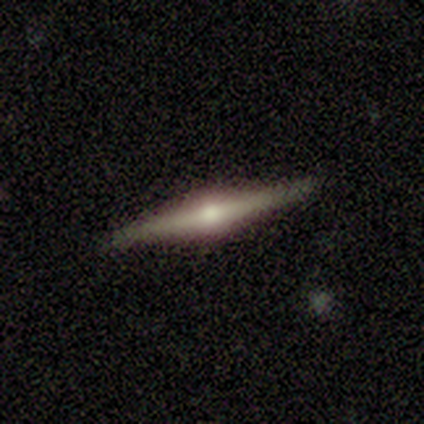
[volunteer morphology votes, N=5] Overall: featured or disk (100%). Edge-on disk: yes (100%). Edge-on bulge: rounded (100%). Merging: none (100%).